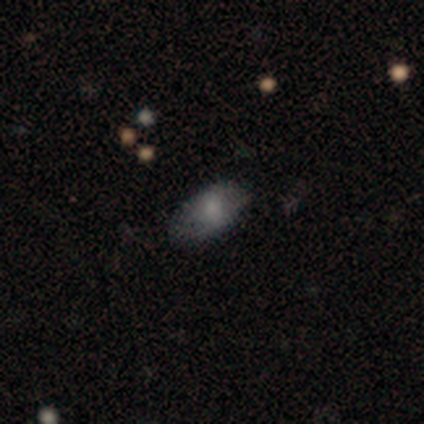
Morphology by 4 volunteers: smooth 100%, featured or disk 0%, star or artifact 0%. Down the decision tree: how rounded — in between (100%); merging — none (75%).